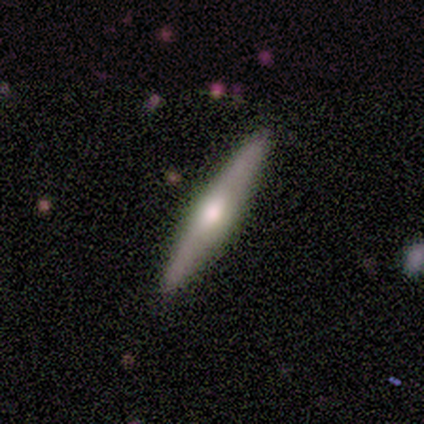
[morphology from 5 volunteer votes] Smooth or featured? featured or disk (80%)
Edge-on disk? yes (100%)
Edge-on bulge? rounded (100%)
Merging? none (100%)